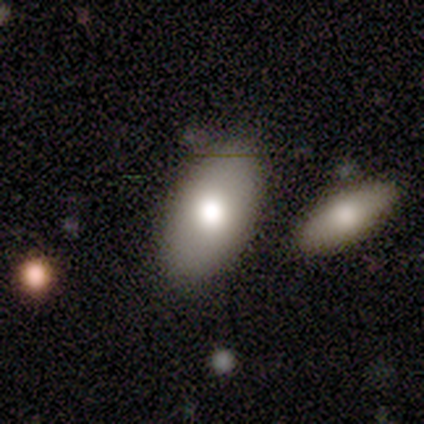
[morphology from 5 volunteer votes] Smooth or featured? smooth (80%)
How rounded? in between (100%)
Merging? none (80%)